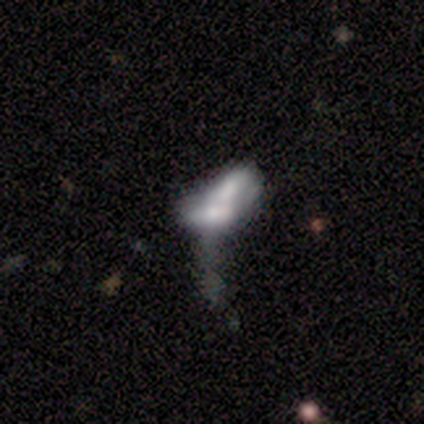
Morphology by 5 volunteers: Overall: featured or disk (80%). Edge-on disk: no (75%). Bar: no (100%). Spiral arms: no (100%). Bulge size: moderate (67%; small 33%). Merging: merger (100%).